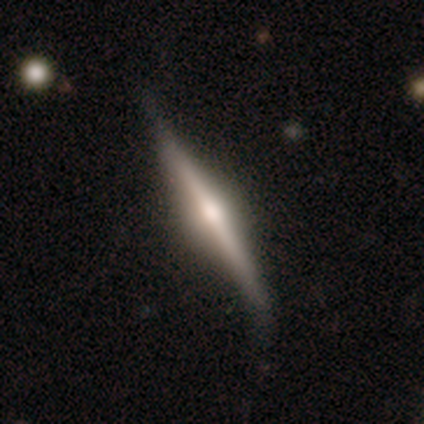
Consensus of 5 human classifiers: A featured or disk galaxy (100%) viewed edge-on (100%) with a rounded central bulge (100%).

Vote fractions:
- Smooth or featured? featured or disk: 100% / smooth: 0% / star or artifact: 0%
- Edge-on disk? yes: 100% / no: 0%
- Edge-on bulge? rounded: 100% / boxy: 0% / none: 0%
- Merging? none: 60% / minor disturbance: 40% / major disturbance: 0% / merger: 0%